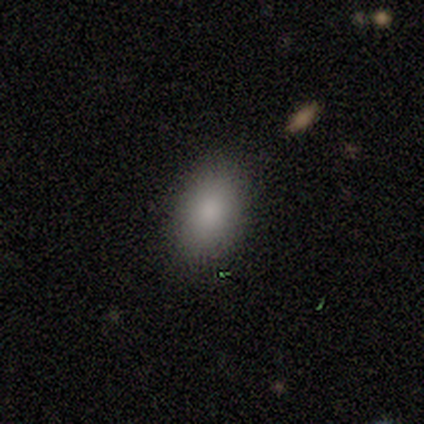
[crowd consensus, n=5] A smooth galaxy with no disk features (60%) that is in between round and cigar-shaped (100%).

Vote fractions:
- Smooth or featured? smooth: 60% / featured or disk: 40% / star or artifact: 0%
- How rounded? in between: 100% / round: 0% / cigar-shaped: 0%
- Merging? none: 100% / minor disturbance: 0% / major disturbance: 0% / merger: 0%